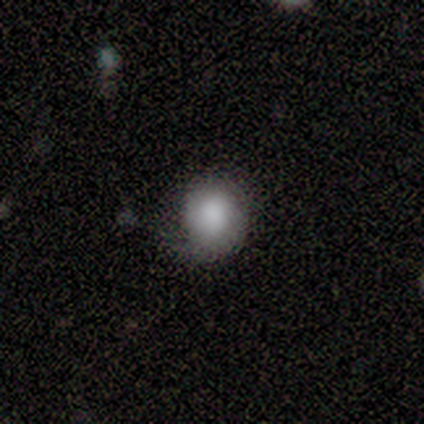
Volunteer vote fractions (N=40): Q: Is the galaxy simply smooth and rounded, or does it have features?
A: smooth — 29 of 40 (72%).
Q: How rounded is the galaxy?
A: round — 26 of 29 (90%).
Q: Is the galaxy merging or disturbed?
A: minor disturbance — 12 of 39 (31%).